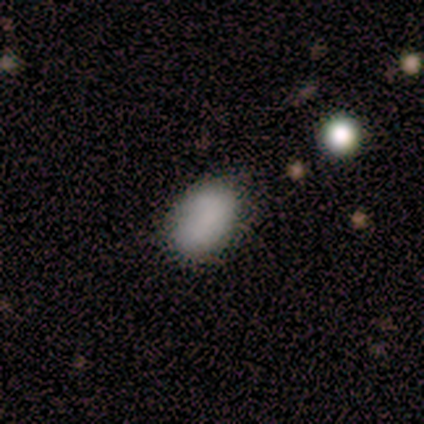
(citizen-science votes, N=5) Smooth or featured? smooth (100%)
How rounded? in between (100%)
Merging? none (80%)